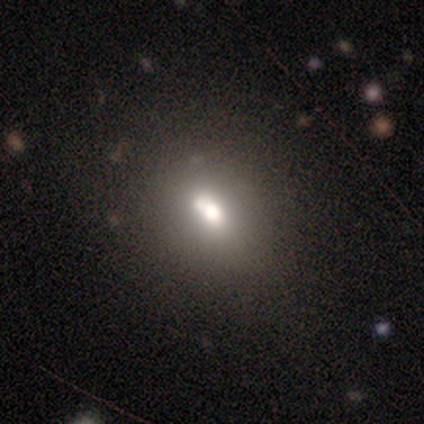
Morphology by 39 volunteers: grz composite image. It shows a smooth galaxy with no disk features (59%) that is in between round and cigar-shaped (57%). Merging: none (42%).